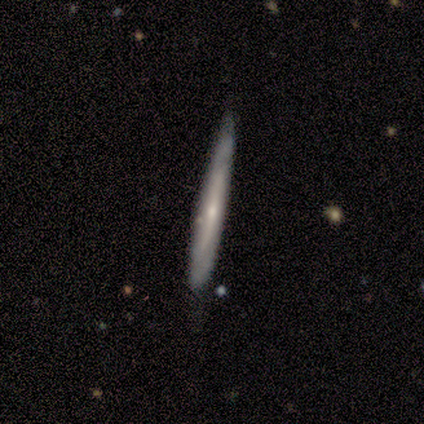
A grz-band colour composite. It shows a smooth galaxy with no disk features (62%) that is cigar-shaped (100%). Merging: none (62%).